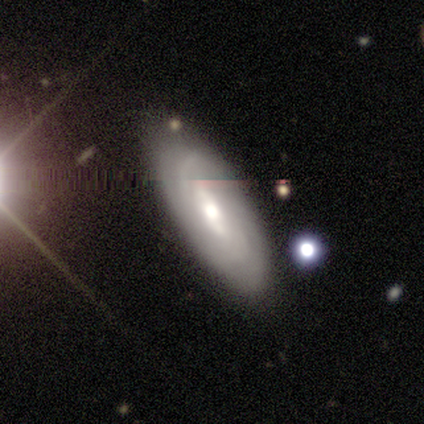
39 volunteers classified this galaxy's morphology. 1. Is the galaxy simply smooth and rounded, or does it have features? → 64% featured or disk, 23% smooth, 13% star or artifact.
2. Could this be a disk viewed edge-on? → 88% no, 12% yes.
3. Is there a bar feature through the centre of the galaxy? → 45% strong, 41% no, 14% weak.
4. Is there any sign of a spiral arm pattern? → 86% yes, 14% no.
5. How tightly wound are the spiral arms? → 74% tight, 16% medium, 11% loose.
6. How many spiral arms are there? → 58% can't tell, 42% 2, 0% 1, 0% 3, 0% 4, 0% more than 4.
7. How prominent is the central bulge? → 68% moderate, 18% large, 14% small, 0% dominant, 0% none.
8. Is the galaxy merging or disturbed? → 76% none, 12% minor disturbance, 9% major disturbance, 3% merger.